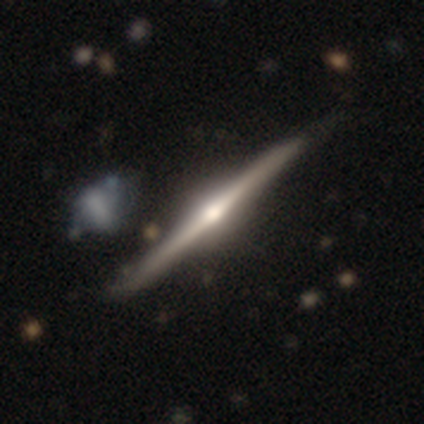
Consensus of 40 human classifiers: A featured or disk galaxy (85%) viewed edge-on (97%) with a rounded central bulge (94%). Merging: none (61%).